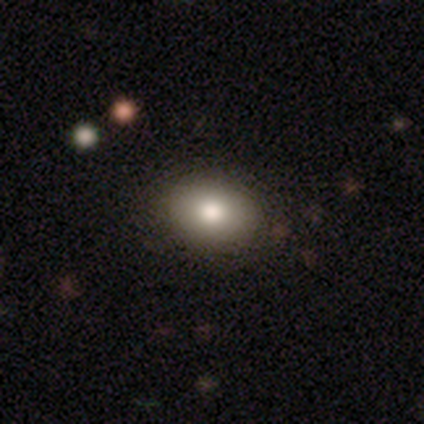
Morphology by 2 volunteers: smooth-or-featured: smooth: 100% | featured or disk: 0% | star or artifact: 0%
  how-rounded: in between: 100% | round: 0% | cigar-shaped: 0%
  merging: none: 50% (tied) | minor disturbance: 50% (tied) | major disturbance: 0% | merger: 0%